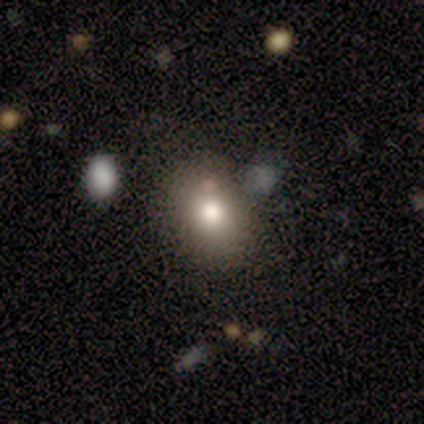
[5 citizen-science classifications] Morphology: type=smooth (60%); roundness=in between (100%); merging=minor disturbance (67%).